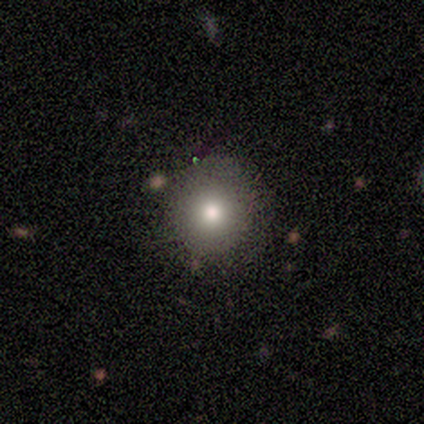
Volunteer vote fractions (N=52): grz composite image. It shows a smooth galaxy with no disk features (79%) that is round (88%). Merging: none (84%).